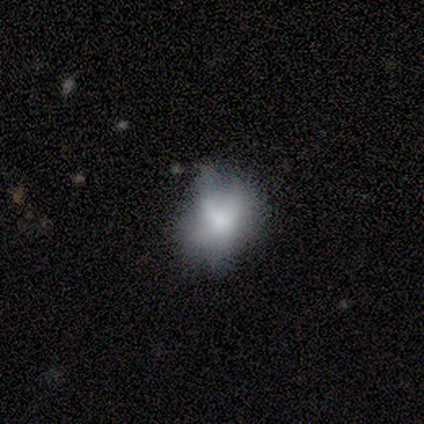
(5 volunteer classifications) Smooth or featured? smooth (40%, tied with featured or disk)
How rounded? round (100%)
Merging? none (50%, tied with minor disturbance)